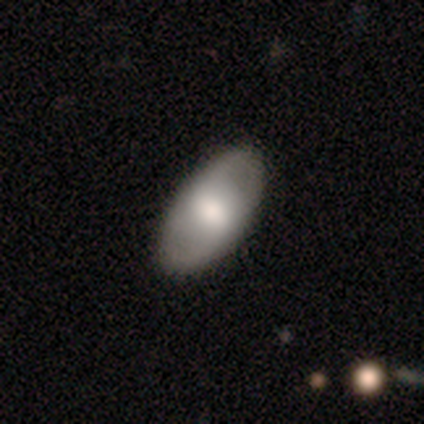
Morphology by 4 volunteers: Q: Smooth or featured?
A: smooth (100%)
Q: How rounded?
A: in between (100%)
Q: Merging?
A: none (100%)